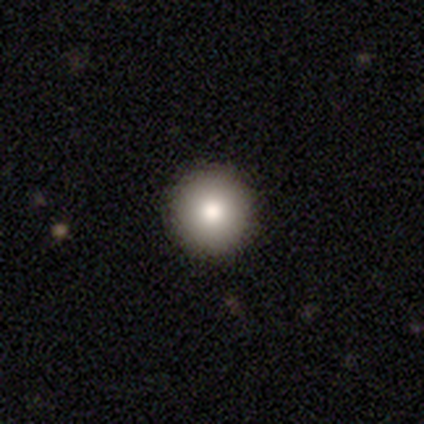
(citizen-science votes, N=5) Smooth or featured: smooth — 40% (tied with featured or disk — 40%)
How rounded: round — 100%
Merging: none — 100%